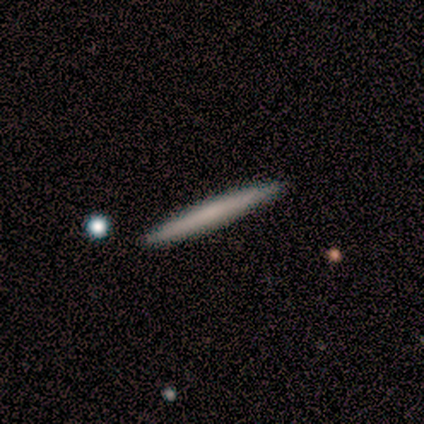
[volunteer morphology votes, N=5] type=smooth (60%); roundness=cigar-shaped (100%); merging=none (100%).